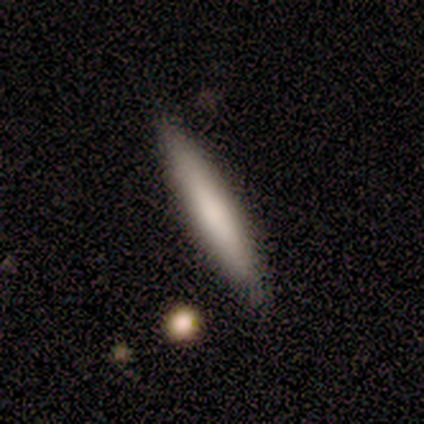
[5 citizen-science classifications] smooth-or-featured: smooth: 80% | featured or disk: 20% | star or artifact: 0%
  how-rounded: cigar-shaped: 100% | round: 0% | in between: 0%
  merging: none: 60% | minor disturbance: 40% | major disturbance: 0% | merger: 0%